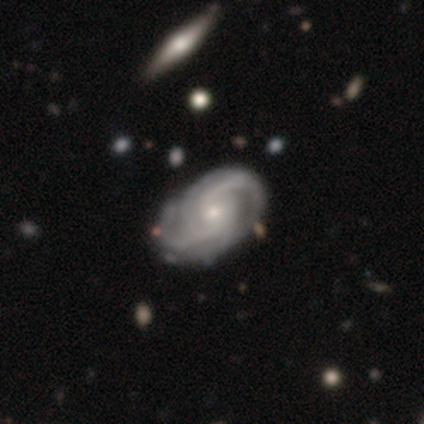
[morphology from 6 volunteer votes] Volunteers were most divided on "merging" (2-way tie): none: 50%, minor disturbance: 50%, major disturbance: 0%, merger: 0%. More confident: smooth or featured — featured or disk (100%); edge-on disk — no (100%); bar — no (100%); spiral arms — yes (100%); bulge size — small (67%); spiral winding — medium (50%); spiral arm count — 3 (50%).